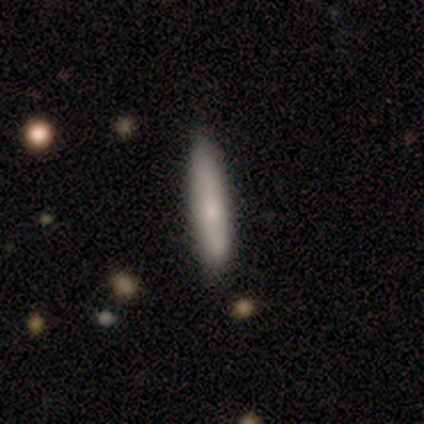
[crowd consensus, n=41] A smooth galaxy with no disk features (83%) that is cigar-shaped (88%).

Vote fractions:
- Smooth or featured? smooth: 83% / featured or disk: 17% / star or artifact: 0%
- How rounded? cigar-shaped: 88% / in between: 9% / round: 3%
- Merging? none: 63% / minor disturbance: 5% / merger: 2% / major disturbance: 0%